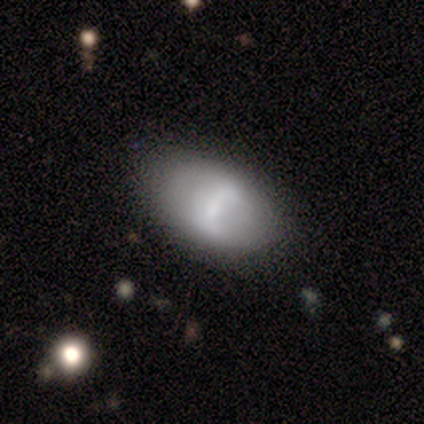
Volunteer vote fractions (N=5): A smooth galaxy with no disk features (60%) that is in between round and cigar-shaped (100%).

Vote fractions:
- Smooth or featured? smooth: 60% / featured or disk: 40% / star or artifact: 0%
- How rounded? in between: 100% / round: 0% / cigar-shaped: 0%
- Merging? none: 80% / minor disturbance: 20% / major disturbance: 0% / merger: 0%